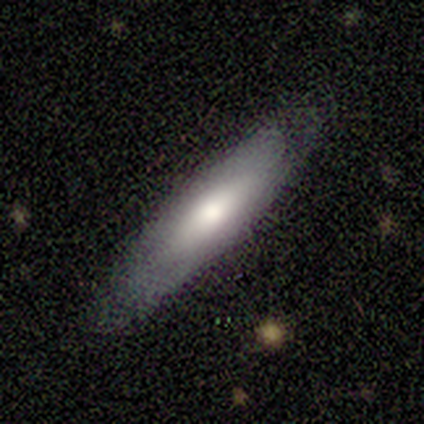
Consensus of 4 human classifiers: A smooth galaxy with no disk features (50%, tied with featured or disk) that is in between round and cigar-shaped (50%, tied with cigar-shaped).

Vote fractions:
- Smooth or featured? smooth: 50% (tied) / featured or disk: 50% (tied) / star or artifact: 0%
- How rounded? in between: 50% (tied) / cigar-shaped: 50% (tied) / round: 0%
- Merging? none: 100% / minor disturbance: 0% / major disturbance: 0% / merger: 0%